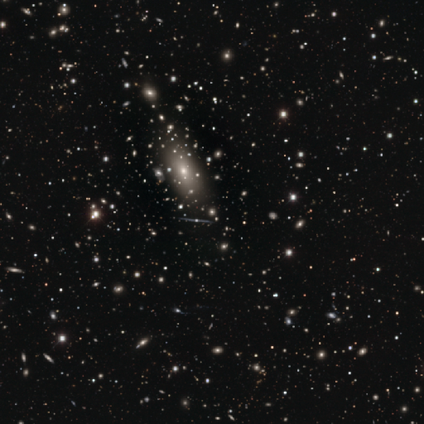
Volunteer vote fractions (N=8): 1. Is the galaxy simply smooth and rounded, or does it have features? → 62% star or artifact, 38% smooth, 0% featured or disk.